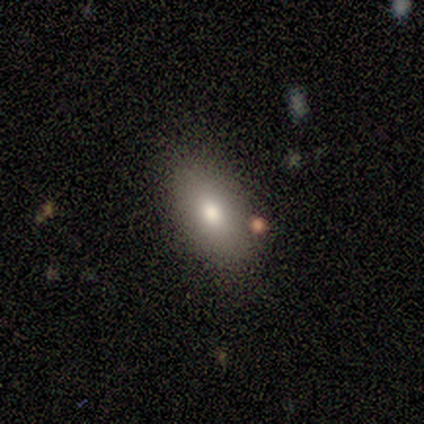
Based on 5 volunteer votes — Smooth or featured? 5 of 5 (100%) said smooth. How rounded? 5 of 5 (100%) said in between. Merging? 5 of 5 (100%) said none.